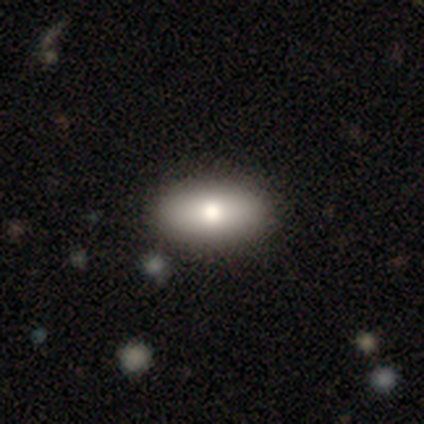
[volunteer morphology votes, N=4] A smooth galaxy with no disk features (75%) that is in between round and cigar-shaped (100%). Merging: none (100%).